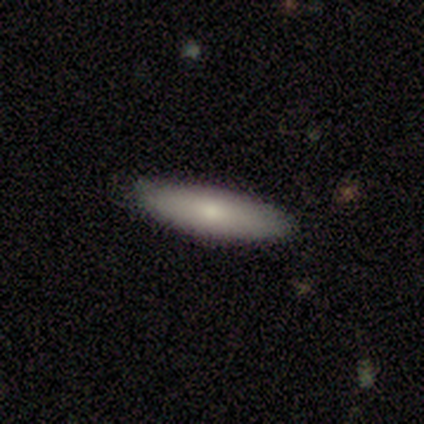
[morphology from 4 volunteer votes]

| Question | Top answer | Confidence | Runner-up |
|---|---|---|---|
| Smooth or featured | smooth | 75% | featured or disk (25%) |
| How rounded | cigar-shaped | 67% | in between (33%) |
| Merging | none | 100% | — |